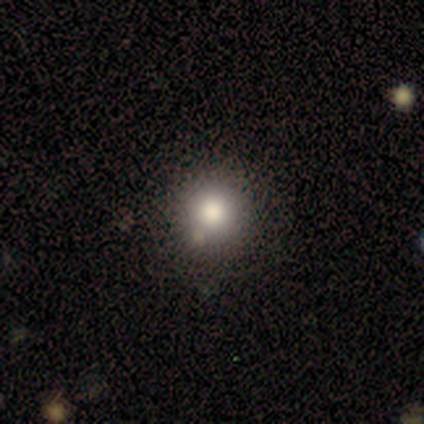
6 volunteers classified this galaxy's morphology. A smooth galaxy with no disk features (100%) that is round (100%). Merging: none (100%).